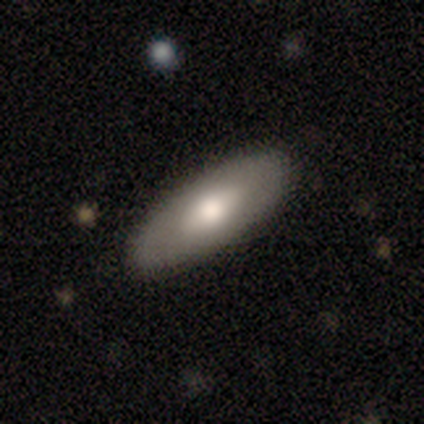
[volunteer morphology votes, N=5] smooth_or_featured: smooth (p=1.00)
how_rounded: in between (p=1.00)
merging: none (p=1.00)